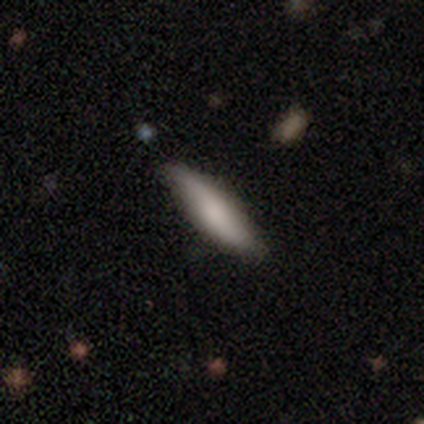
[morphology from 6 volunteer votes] type=smooth (67%); roundness=cigar-shaped (75%); merging=none (50%, tied with minor disturbance).